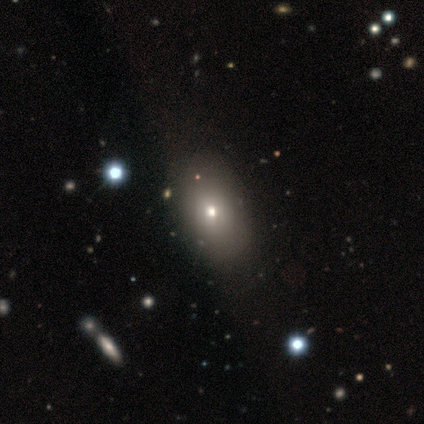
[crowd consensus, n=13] smooth-or-featured: smooth: 62% | featured or disk: 31% | star or artifact: 8%
  how-rounded: in between: 88% | round: 12% | cigar-shaped: 0%
  merging: none: 83% | minor disturbance: 8% | major disturbance: 8% | merger: 0%